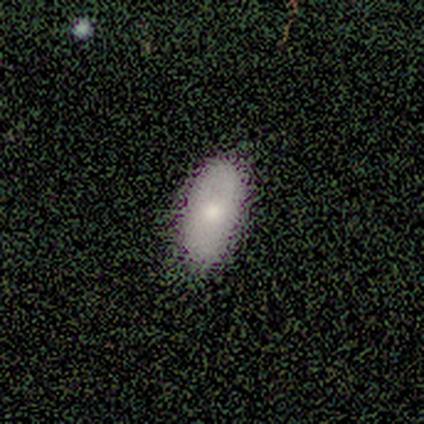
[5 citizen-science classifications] A smooth galaxy with no disk features (60%) that is in between round and cigar-shaped (100%).

Vote fractions:
- Smooth or featured? smooth: 60% / featured or disk: 40% / star or artifact: 0%
- How rounded? in between: 100% / round: 0% / cigar-shaped: 0%
- Merging? none: 100% / minor disturbance: 0% / major disturbance: 0% / merger: 0%